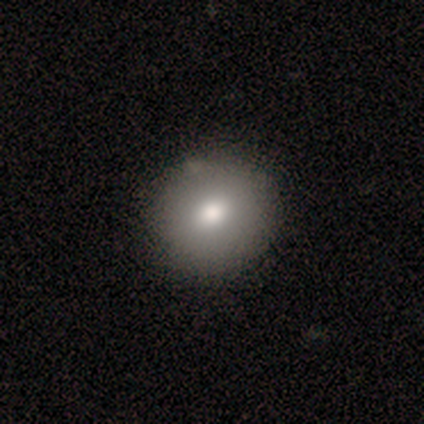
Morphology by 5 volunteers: This appears to be a smooth galaxy with no disk features (80%) that is round (100%). Merging: none (100%).